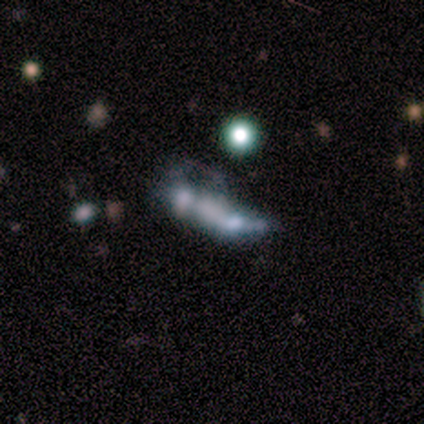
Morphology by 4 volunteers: type=featured or disk (75%); edge-on=no (67%); bar=no (100%); spiral arms=no (100%); bulge=none (100%); merging=minor disturbance (67%).